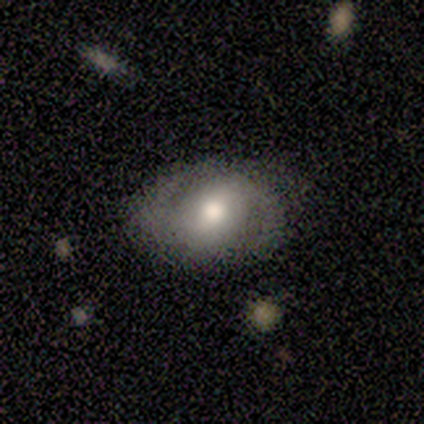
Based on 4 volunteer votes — This is clearly a featured or disk galaxy (100%). It is clearly not viewed edge-on (100%). Bar: possibly strong (50%). Spiral arm pattern: clearly yes (100%). Spiral arm count: clearly 2 (100%). Spiral winding: possibly tight (50%, tied with medium). Central bulge: possibly large (50%, tied with moderate). Merging: likely minor disturbance (75%).